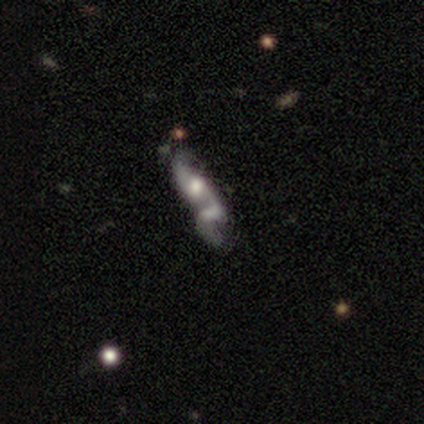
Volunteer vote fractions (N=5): This appears to be a featured or disk galaxy (80%) with no bar (75%), no spiral arms (100%) and a moderate central bulge (75%). Merging: merger (60%).